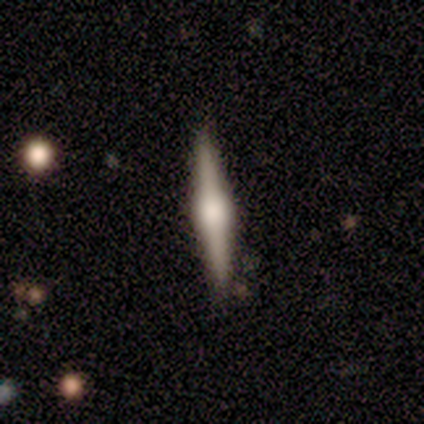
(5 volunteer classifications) smooth_or_featured: featured or disk (p=0.80) [alt: smooth p=0.20]
disk_edge_on: yes (p=1.00)
edge_on_bulge: rounded (p=1.00)
merging: none (p=0.80) [alt: minor disturbance p=0.20]